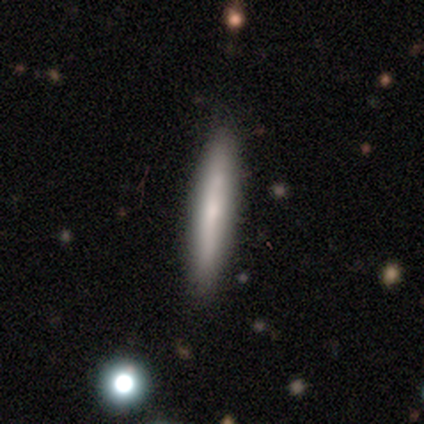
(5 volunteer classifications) Overall: smooth (60%; featured or disk 40%). How rounded: cigar-shaped (100%). Merging: none (80%).